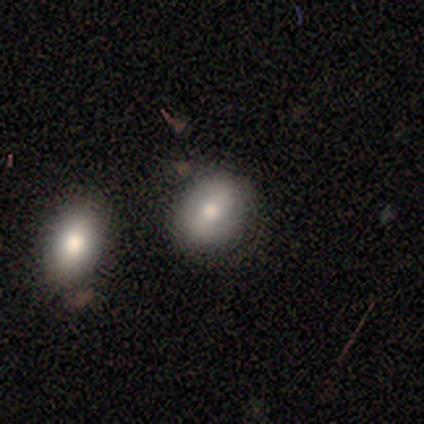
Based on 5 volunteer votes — Overall: smooth (60%; star or artifact 40%). How rounded: round (67%; in between 33%). Merging: none (67%; minor disturbance 33%).